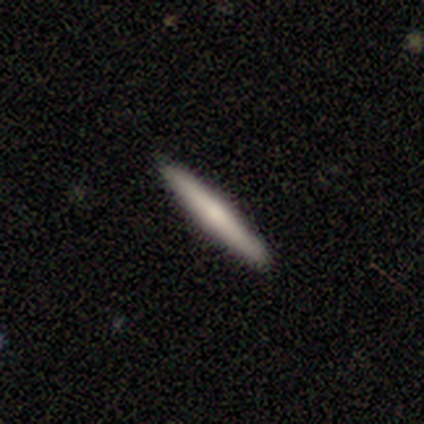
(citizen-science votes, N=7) smooth 71%, featured or disk 29%, star or artifact 0%. Down the decision tree: how rounded — cigar-shaped (100%); merging — none (100%).